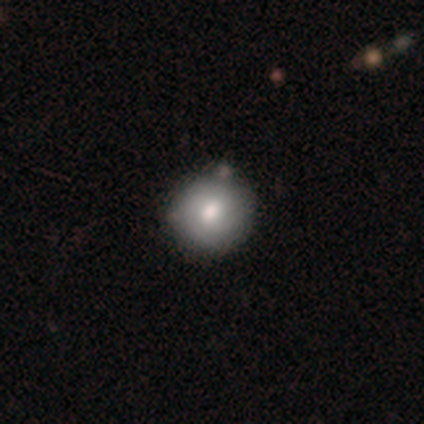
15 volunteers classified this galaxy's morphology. Q: Smooth or featured?
A: smooth (80%); runner-up: featured or disk (13%)
Q: How rounded?
A: round (100%)
Q: Merging?
A: none (93%); runner-up: merger (7%)